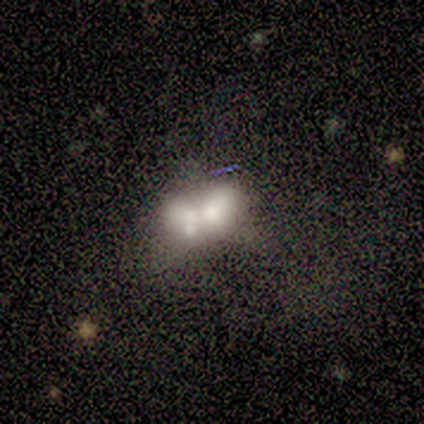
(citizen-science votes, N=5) Smooth or featured: featured or disk — 80% (smooth — 20%)
Edge-on disk: no — 100%
Bar: no — 75% (weak — 25%)
Spiral arms: no — 100%
Bulge size: small — 50% (large — 25%)
Merging: merger — 100%